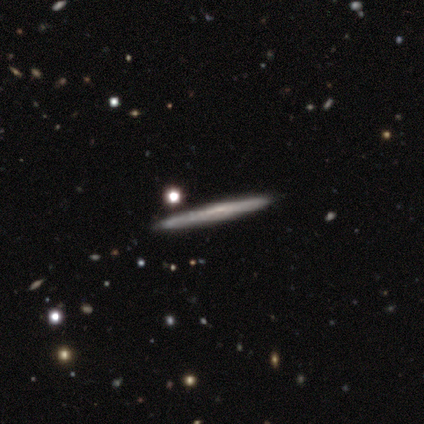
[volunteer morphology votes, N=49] A featured or disk galaxy (59%) viewed edge-on (90%) with no central bulge (46%).

Vote fractions:
- Smooth or featured? featured or disk: 59% / smooth: 35% / star or artifact: 6%
- Edge-on disk? yes: 90% / no: 10%
- Edge-on bulge? none: 46% / rounded: 31% / boxy: 23%
- Merging? none: 80% / minor disturbance: 13% / merger: 4% / major disturbance: 2%